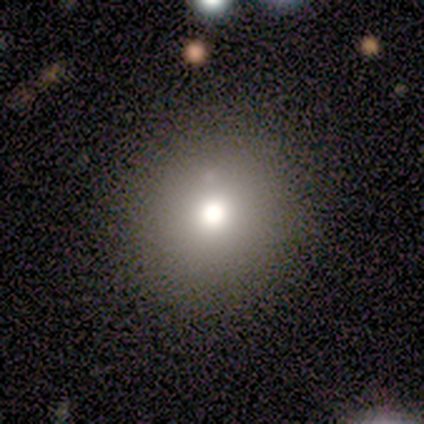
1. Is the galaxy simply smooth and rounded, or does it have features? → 90% smooth, 10% featured or disk, 0% star or artifact.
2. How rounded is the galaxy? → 89% round, 11% in between, 0% cigar-shaped.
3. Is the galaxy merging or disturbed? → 90% none, 10% minor disturbance, 0% major disturbance, 0% merger.